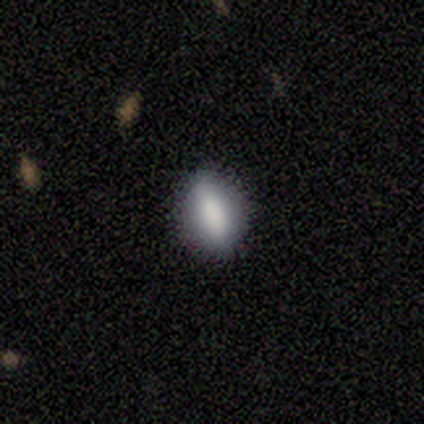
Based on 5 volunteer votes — Smooth or featured: smooth — 100%
How rounded: in between — 100%
Merging: none — 80% (minor disturbance — 20%)